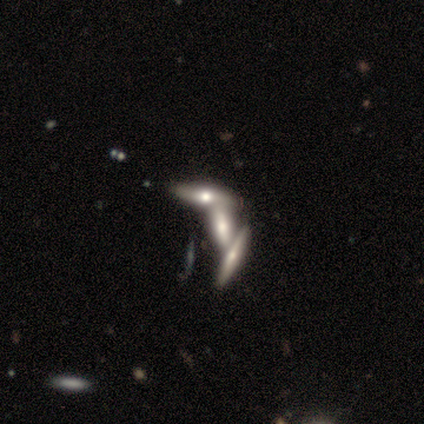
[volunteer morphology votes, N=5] This appears to be a smooth galaxy with no disk features (60%) that is cigar-shaped (67%). Merging: merger (60%).